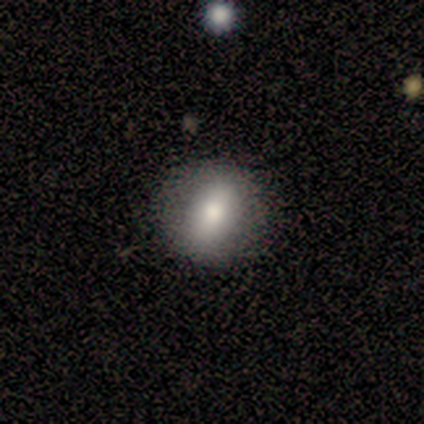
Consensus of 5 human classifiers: Volunteers were most divided on "how rounded": round: 80%, in between: 20%, cigar-shaped: 0%. More confident: smooth or featured — smooth (100%); merging — none (100%).